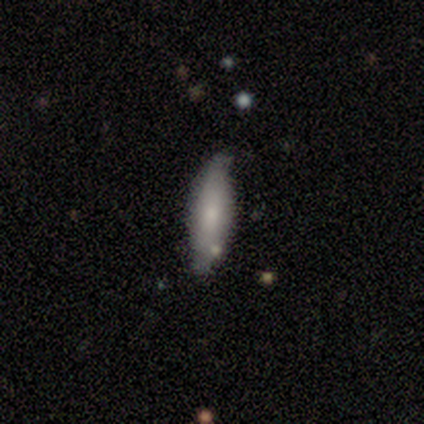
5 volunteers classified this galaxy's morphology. Overall: smooth (60%; featured or disk 20%). How rounded: in between (67%; cigar-shaped 33%). Merging: none (100%).